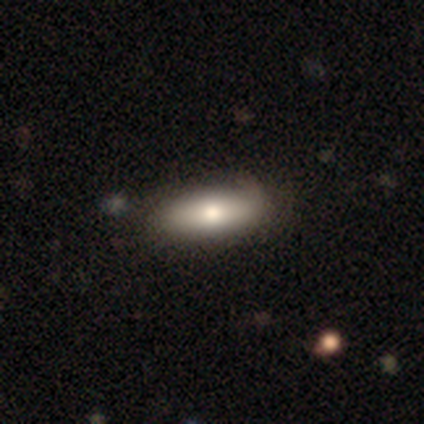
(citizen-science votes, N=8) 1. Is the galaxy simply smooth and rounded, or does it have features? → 62% smooth, 38% featured or disk, 0% star or artifact.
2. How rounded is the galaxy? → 80% in between, 20% cigar-shaped, 0% round.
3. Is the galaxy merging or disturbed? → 100% none, 0% minor disturbance, 0% major disturbance, 0% merger.